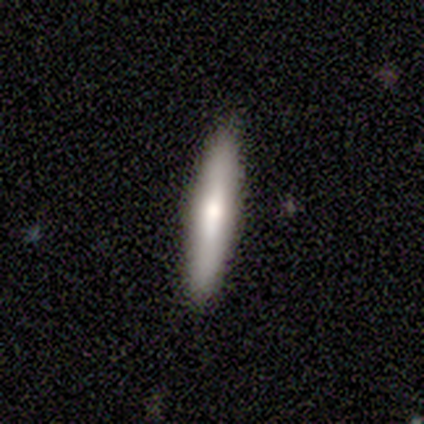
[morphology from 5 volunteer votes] Smooth or featured: smooth — 80% (featured or disk — 20%)
How rounded: cigar-shaped — 100%
Merging: none — 100%